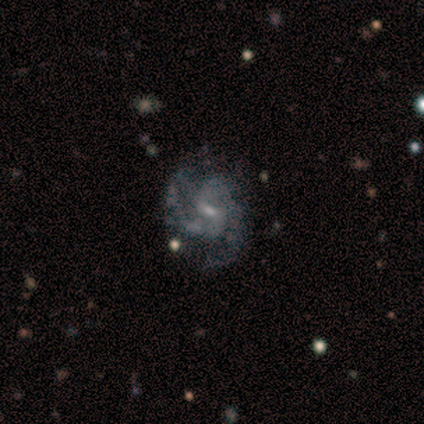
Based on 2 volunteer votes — Smooth or featured? featured or disk (100%)
Edge-on disk? no (100%)
Bar? weak (50%, tied with no)
Spiral arms? yes (100%)
Spiral winding? tight (50%, tied with loose)
Spiral arm count? 2 (100%)
Bulge size? moderate (50%, tied with small)
Merging? none (50%, tied with minor disturbance)